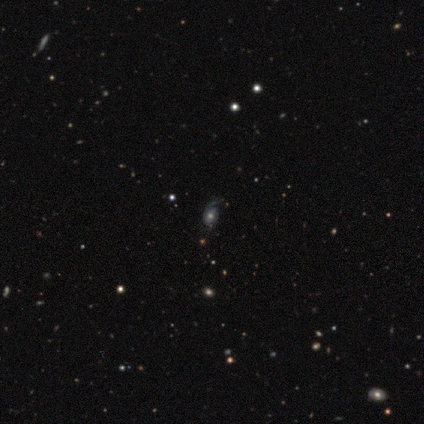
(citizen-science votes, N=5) smooth_or_featured: featured or disk (p=0.80) [alt: star or artifact p=0.20]
disk_edge_on: no (p=1.00)
bar: no (p=0.75) [alt: weak p=0.25]
has_spiral_arms: yes (p=1.00)
spiral_winding: tight (p=0.75) [alt: loose p=0.25]
spiral_arm_count: 1 (p=0.50) [alt: 2 p=0.25]
bulge_size: moderate (p=0.75) [alt: small p=0.25]
merging: none (p=0.75) [alt: major disturbance p=0.25]